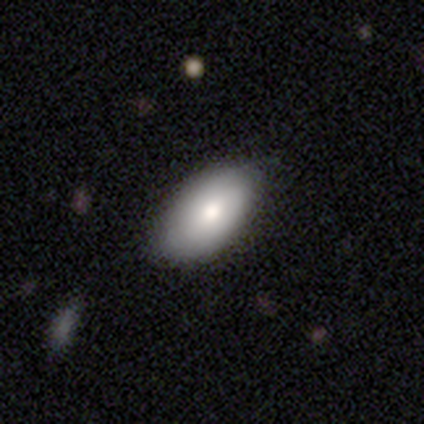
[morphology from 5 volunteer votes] smooth-or-featured: smooth: 100% | featured or disk: 0% | star or artifact: 0%
  how-rounded: in between: 100% | round: 0% | cigar-shaped: 0%
  merging: none: 100% | minor disturbance: 0% | major disturbance: 0% | merger: 0%